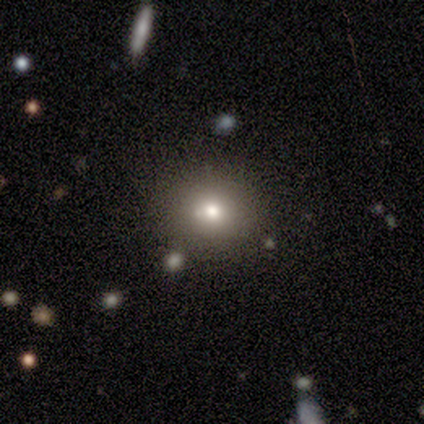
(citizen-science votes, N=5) smooth_or_featured: smooth (p=0.80) [alt: star or artifact p=0.20]
how_rounded: round (p=0.75) [alt: in between p=0.25]
merging: none (p=0.75) [alt: minor disturbance p=0.25]